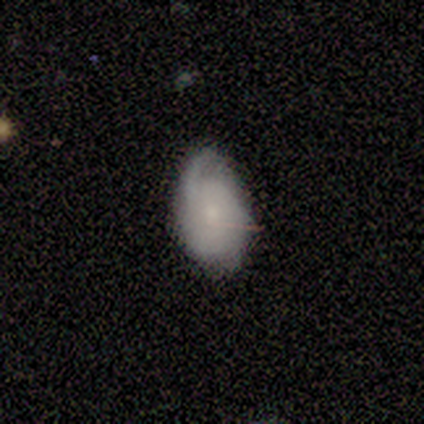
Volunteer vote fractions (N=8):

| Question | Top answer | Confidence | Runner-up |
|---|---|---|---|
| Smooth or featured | featured or disk | 75% | smooth (25%) |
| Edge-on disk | no | 100% | — |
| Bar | weak | 50% | tied: no (50%) |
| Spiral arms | yes | 83% | no (17%) |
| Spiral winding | loose | 60% | medium (40%) |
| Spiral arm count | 1 | 80% | 2 (20%) |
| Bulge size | moderate | 33% | tied: small (33%) |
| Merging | none | 50% | minor disturbance (38%) |